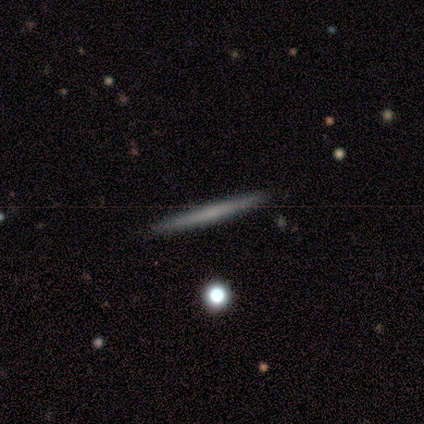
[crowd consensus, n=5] Q: Smooth or featured?
A: featured or disk (60%); runner-up: smooth (40%)
Q: Edge-on disk?
A: yes (100%)
Q: Edge-on bulge?
A: none (100%)
Q: Merging?
A: none (100%)